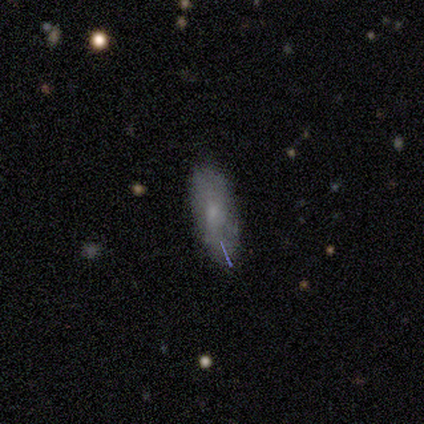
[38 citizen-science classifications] A smooth galaxy with no disk features (50%) that is in between round and cigar-shaped (84%).

Vote fractions:
- Smooth or featured? smooth: 50% / featured or disk: 42% / star or artifact: 8%
- How rounded? in between: 84% / cigar-shaped: 16% / round: 0%
- Merging? none: 74% / minor disturbance: 17% / major disturbance: 6% / merger: 3%